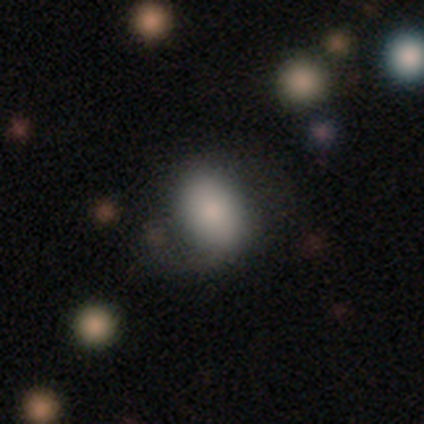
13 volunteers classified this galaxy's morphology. A smooth galaxy with no disk features (92%) that is in between round and cigar-shaped (67%). Merging: none (54%).